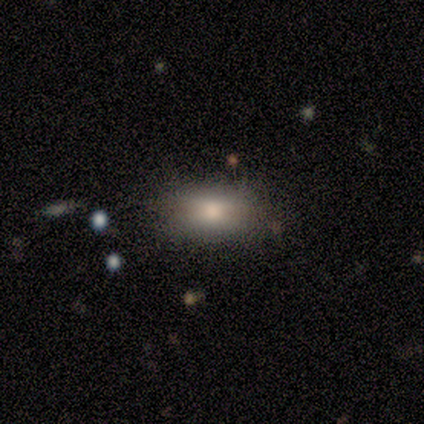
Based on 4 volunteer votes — This appears to be a smooth galaxy with no disk features (100%) that is in between round and cigar-shaped (100%). Merging: none (100%).